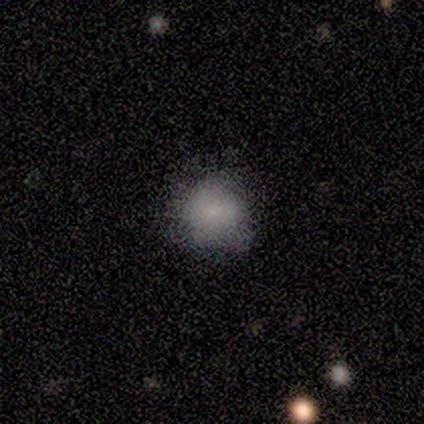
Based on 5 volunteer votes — This appears to be a smooth galaxy with no disk features (80%) that is round (75%). Merging: none (60%).